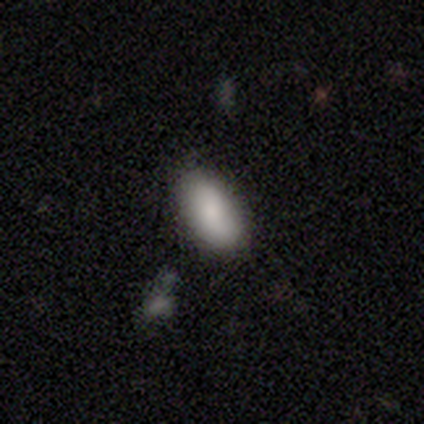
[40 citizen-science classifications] This appears to be a smooth galaxy with no disk features (82%) that is in between round and cigar-shaped (82%). Merging: none (91%).